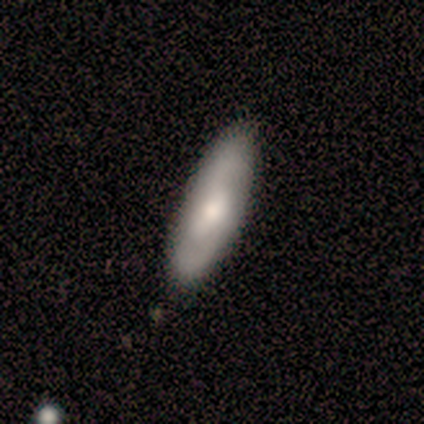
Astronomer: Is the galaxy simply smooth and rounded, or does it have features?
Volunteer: smooth — 50%, tied with featured or disk at 50%.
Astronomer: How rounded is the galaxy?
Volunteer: in between — 75%.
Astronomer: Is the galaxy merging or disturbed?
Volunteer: none — 50% (runner-up: minor disturbance, 38%).